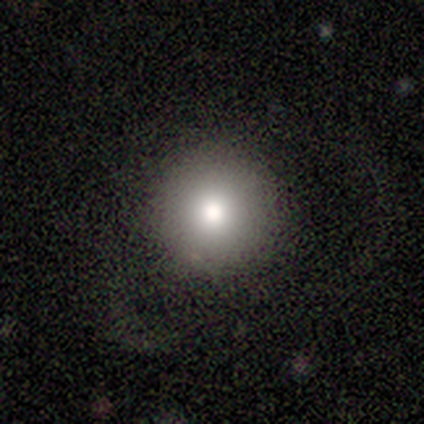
Volunteers were most divided on "merging": none: 60%, minor disturbance: 40%, major disturbance: 0%, merger: 0%. More confident: smooth or featured — smooth (100%); how rounded — round (100%).